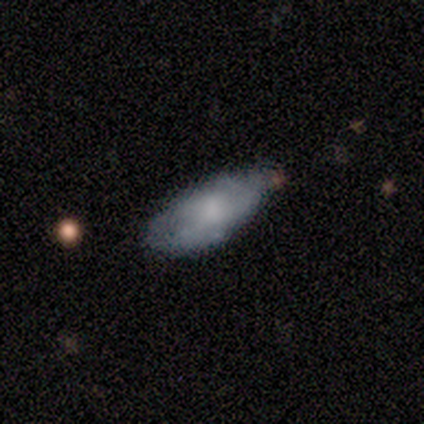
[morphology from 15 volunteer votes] Q: Smooth or featured?
A: featured or disk (53%); runner-up: smooth (40%)
Q: Edge-on disk?
A: no (88%); runner-up: yes (12%)
Q: Bar?
A: no (100%)
Q: Spiral arms?
A: no (57%); runner-up: yes (43%)
Q: Bulge size?
A: large (29%); tied with: moderate (29%); none (29%)
Q: Merging?
A: none (57%); runner-up: minor disturbance (43%)